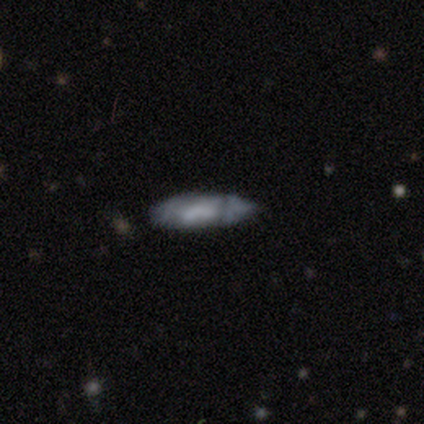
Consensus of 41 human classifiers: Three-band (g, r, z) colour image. It shows a featured or disk galaxy (49%) with no bar (53%), no spiral arms (82%) and no central bulge (47%). Merging: none (47%, tied with minor disturbance).